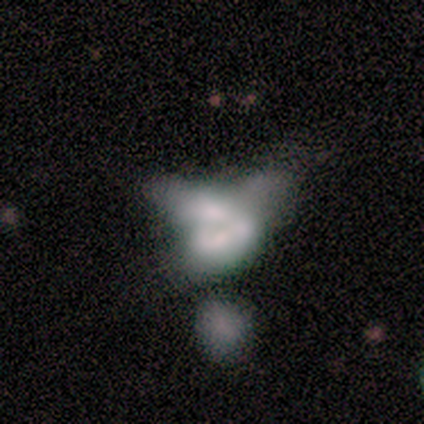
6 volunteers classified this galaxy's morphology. Smooth or featured?
  - featured or disk: 67% *
  - smooth: 33%
  - star or artifact: 0%
Edge-on disk?
  - no: 100% *
  - yes: 0%
Bar?
  - no: 100% *
  - strong: 0%
  - weak: 0%
Spiral arms?
  - no: 100% *
  - yes: 0%
Bulge size?
  - dominant: 25% * (tied)
  - large: 25% * (tied)
  - small: 25% * (tied)
  - none: 25% * (tied)
  - moderate: 0%
Merging?
  - major disturbance: 67% *
  - none: 17%
  - minor disturbance: 17%
  - merger: 0%